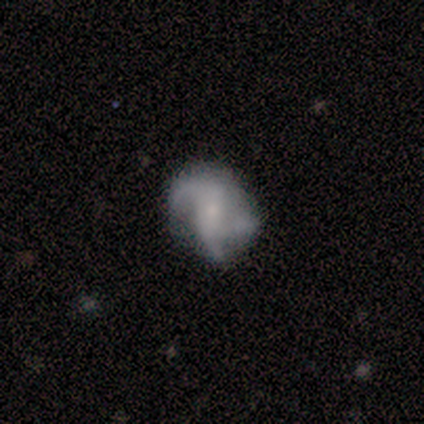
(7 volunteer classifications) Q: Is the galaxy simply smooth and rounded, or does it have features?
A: featured or disk — 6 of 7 (86%).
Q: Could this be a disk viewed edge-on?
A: no — 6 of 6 (100%).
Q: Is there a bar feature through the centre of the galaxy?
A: weak — 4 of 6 (67%).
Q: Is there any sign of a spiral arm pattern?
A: yes — 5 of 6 (83%).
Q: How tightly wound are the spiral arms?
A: tight — 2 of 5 (40%, tied with loose).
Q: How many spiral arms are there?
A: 3 — 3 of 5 (60%).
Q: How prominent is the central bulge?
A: small — 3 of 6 (50%).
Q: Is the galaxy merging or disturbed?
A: none — 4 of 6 (67%).